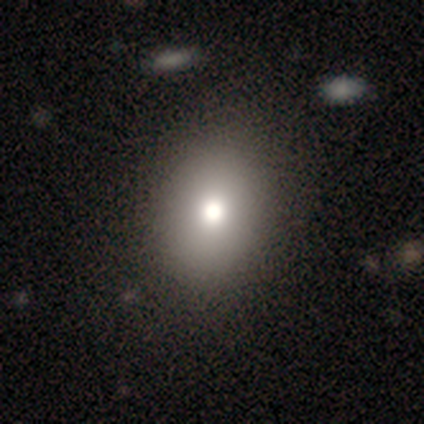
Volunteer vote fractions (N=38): This is likely a smooth galaxy (74%). How rounded: likely in between (64%). Merging: likely none (76%).